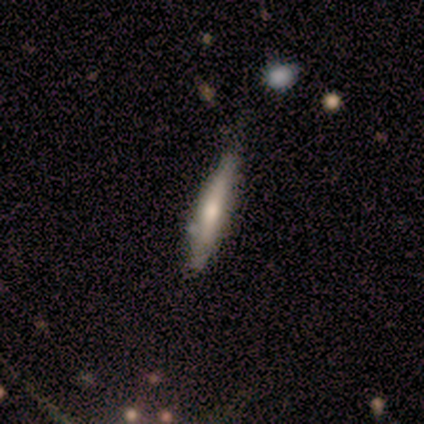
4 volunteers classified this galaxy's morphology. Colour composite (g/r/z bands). It shows a featured or disk galaxy (75%) viewed edge-on (100%) with a rounded central bulge (100%). Merging: none (75%).